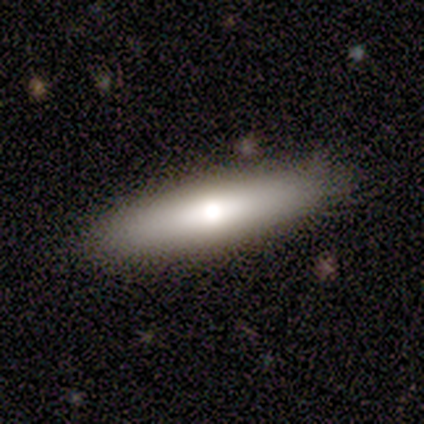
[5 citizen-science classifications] Smooth or featured: smooth — 80% (star or artifact — 20%)
How rounded: in between — 50% (tied with cigar-shaped — 50%)
Merging: none — 75% (minor disturbance — 25%)